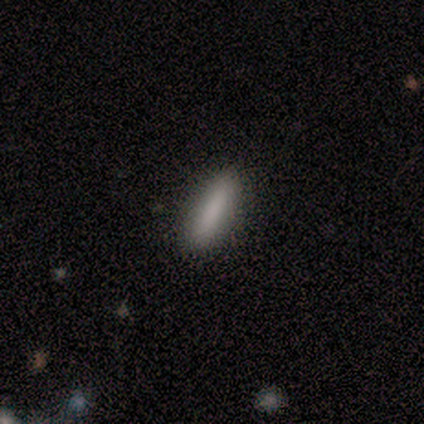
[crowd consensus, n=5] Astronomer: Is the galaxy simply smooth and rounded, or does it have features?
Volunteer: smooth — 80%.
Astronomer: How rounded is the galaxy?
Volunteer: cigar-shaped — 75%.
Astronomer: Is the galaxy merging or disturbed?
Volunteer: none — 80%.